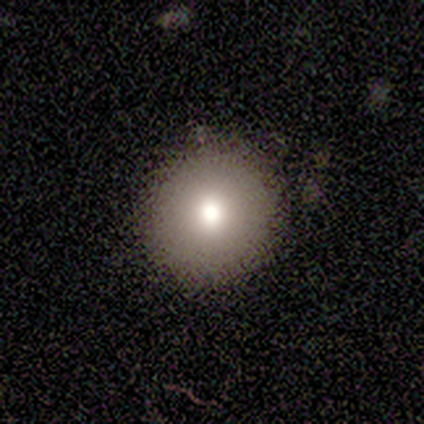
Overall: smooth (75%). How rounded: round (100%). Merging: none (100%).